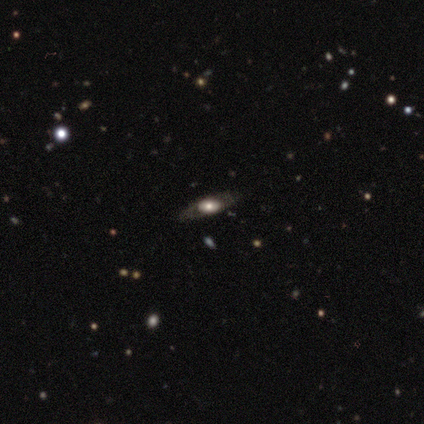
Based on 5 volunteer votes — A featured or disk galaxy (80%) with no bar (100%), no spiral arms (100%) and a large central bulge (67%).

Vote fractions:
- Smooth or featured? featured or disk: 80% / star or artifact: 20% / smooth: 0%
- Edge-on disk? no: 75% / yes: 25%
- Bar? no: 100% / strong: 0% / weak: 0%
- Spiral arms? no: 100% / yes: 0%
- Bulge size? large: 67% / moderate: 33% / dominant: 0% / small: 0% / none: 0%
- Merging? none: 100% / minor disturbance: 0% / major disturbance: 0% / merger: 0%